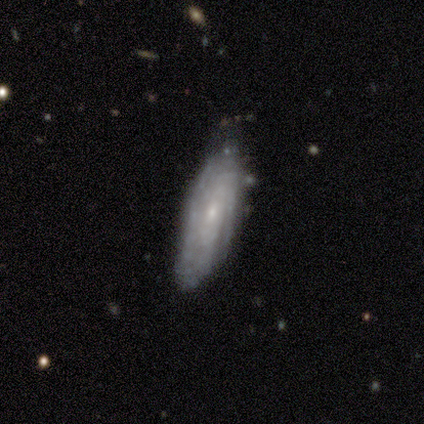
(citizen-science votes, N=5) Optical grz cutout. It shows a featured or disk galaxy (80%) with no bar (75%), 3 (50%, tied with can't tell) tight (75%) spiral arms (100%) and a small central bulge (75%). Merging: none (100%).